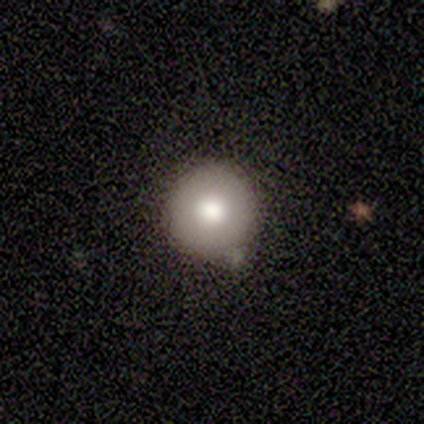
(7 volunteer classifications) Smooth or featured? 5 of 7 (71%) said smooth. How rounded? 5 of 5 (100%) said round. Merging? 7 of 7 (100%) said none.